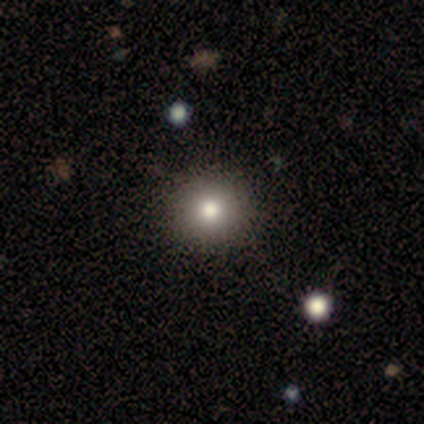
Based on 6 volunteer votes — A smooth galaxy with no disk features (67%) that is round (100%). Merging: none (75%).